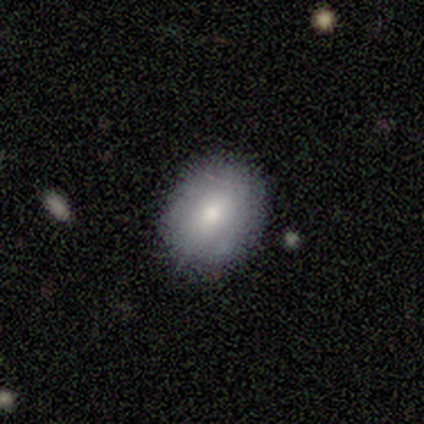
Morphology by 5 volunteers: smooth 80%, featured or disk 20%, star or artifact 0%. Down the decision tree: how rounded — in between (100%); merging — none (100%).